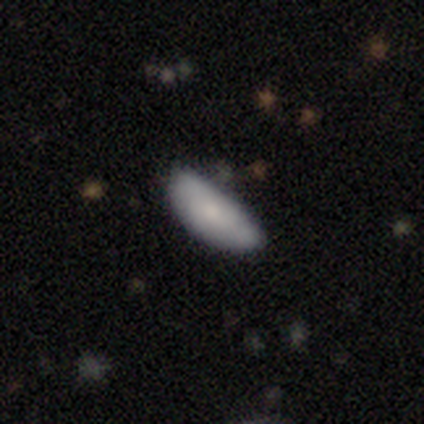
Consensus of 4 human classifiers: This is likely a smooth galaxy (75%). How rounded: clearly in between (100%). Merging: possibly minor disturbance (50%).